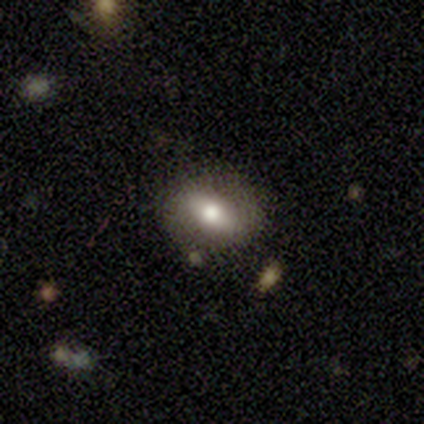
Smooth or featured? 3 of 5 (60%) said featured or disk. Edge-on disk? 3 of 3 (100%) said no. Bar? 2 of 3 (67%) said strong. Spiral arms? 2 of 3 (67%) said yes. Spiral winding? 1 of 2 (50%, tied with medium) said tight. Spiral arm count? 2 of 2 (100%) said 2. Bulge size? 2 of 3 (67%) said moderate. Merging? 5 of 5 (100%) said none.